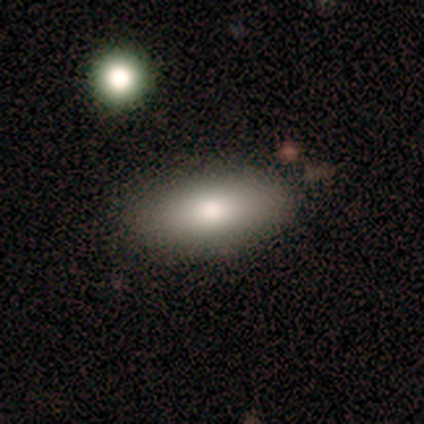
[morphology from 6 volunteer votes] Q: Smooth or featured?
A: smooth (83%); runner-up: featured or disk (17%)
Q: How rounded?
A: in between (80%); runner-up: cigar-shaped (20%)
Q: Merging?
A: none (83%); runner-up: merger (17%)